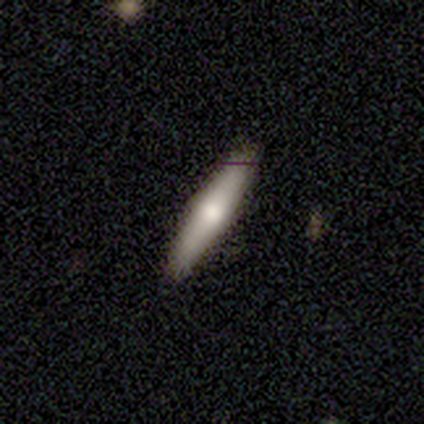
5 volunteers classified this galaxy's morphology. A featured or disk galaxy (60%) viewed edge-on (100%) with a rounded central bulge (67%). Merging: none (80%).